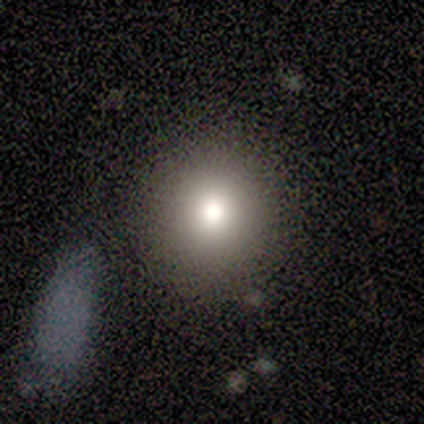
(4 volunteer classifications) Smooth or featured?
  - smooth: 75% *
  - star or artifact: 25%
  - featured or disk: 0%
How rounded?
  - round: 100% *
  - in between: 0%
  - cigar-shaped: 0%
Merging?
  - none: 100% *
  - minor disturbance: 0%
  - major disturbance: 0%
  - merger: 0%